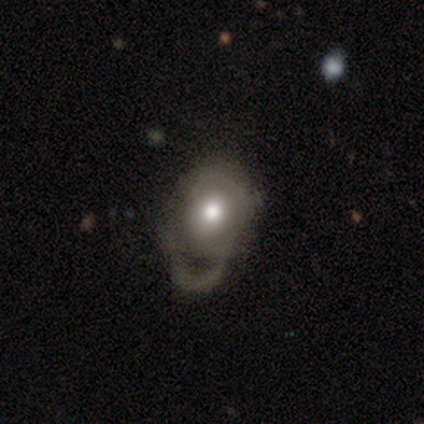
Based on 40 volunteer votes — A smooth galaxy with no disk features (50%) that is in between round and cigar-shaped (55%).

Vote fractions:
- Smooth or featured? smooth: 50% / featured or disk: 48% / star or artifact: 2%
- How rounded? in between: 55% / round: 45% / cigar-shaped: 0%
- Merging? major disturbance: 62% / minor disturbance: 23% / none: 8% / merger: 8%